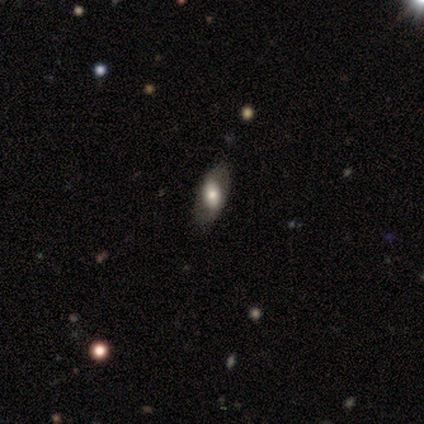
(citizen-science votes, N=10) This appears to be a smooth galaxy with no disk features (80%) that is in between round and cigar-shaped (88%). Merging: none (70%).